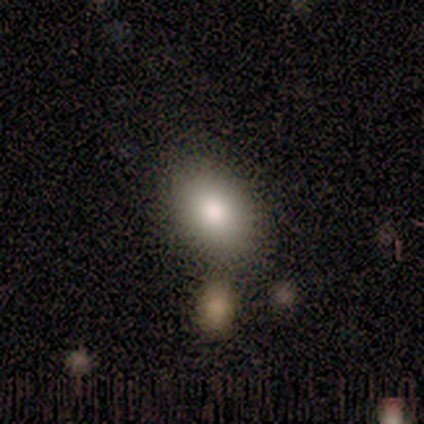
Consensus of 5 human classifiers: Overall: smooth (80%). How rounded: in between (75%). Merging: none (80%).